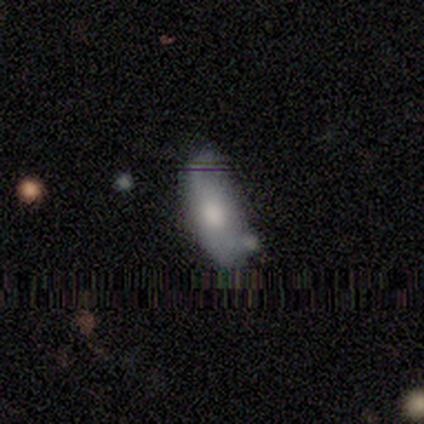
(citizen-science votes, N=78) Morphology: type=smooth (58%); roundness=in between (96%); merging=none (21%, tied with minor disturbance).